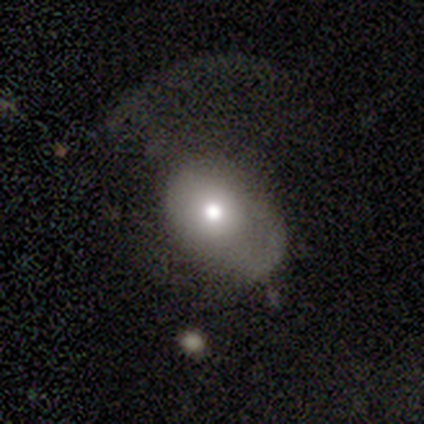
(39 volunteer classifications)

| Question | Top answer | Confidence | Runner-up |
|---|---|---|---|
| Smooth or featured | smooth | 62% | featured or disk (33%) |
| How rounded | in between | 58% | round (42%) |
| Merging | major disturbance | 43% | minor disturbance (30%) |